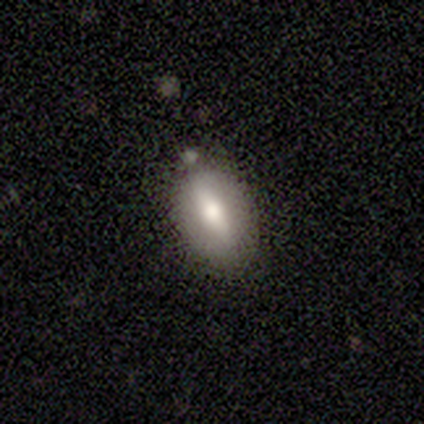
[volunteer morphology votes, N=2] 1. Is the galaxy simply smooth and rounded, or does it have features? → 50% featured or disk (tied), 50% star or artifact (tied), 0% smooth.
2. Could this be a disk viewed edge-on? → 100% yes, 0% no.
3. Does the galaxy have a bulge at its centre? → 100% rounded, 0% boxy, 0% none.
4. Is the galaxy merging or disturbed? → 100% none, 0% minor disturbance, 0% major disturbance, 0% merger.